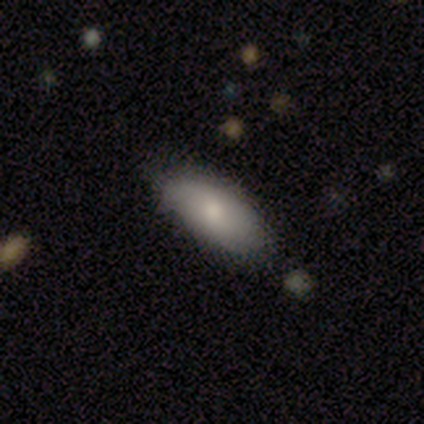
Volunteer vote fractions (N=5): smooth-or-featured: smooth: 80% | featured or disk: 20% | star or artifact: 0%
  how-rounded: in between: 75% | cigar-shaped: 25% | round: 0%
  merging: none: 60% | minor disturbance: 40% | major disturbance: 0% | merger: 0%